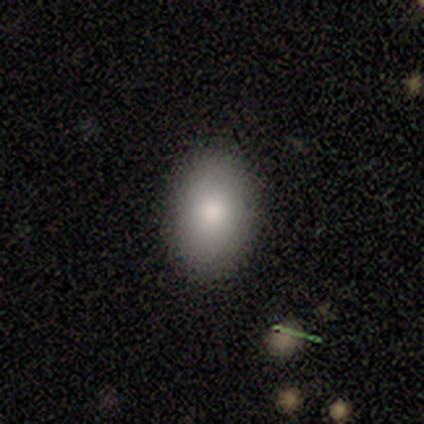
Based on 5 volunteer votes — Q: Smooth or featured?
A: smooth (60%); runner-up: featured or disk (40%)
Q: How rounded?
A: in between (100%)
Q: Merging?
A: none (100%)